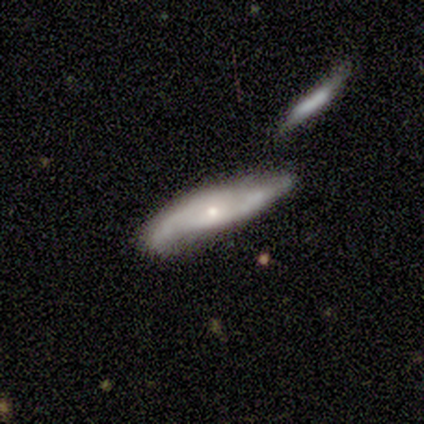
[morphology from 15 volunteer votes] smooth_or_featured: featured or disk (p=0.53) [alt: smooth p=0.40]
disk_edge_on: no (p=0.62) [alt: yes p=0.38]
bar: no (p=0.80) [alt: strong p=0.20]
has_spiral_arms: yes (p=1.00)
spiral_winding: medium (p=0.40) [tied with: loose p=0.40]
spiral_arm_count: 2 (p=0.80) [alt: 1 p=0.20]
bulge_size: small (p=0.80) [alt: dominant p=0.20]
merging: none (p=0.64) [alt: minor disturbance p=0.14]